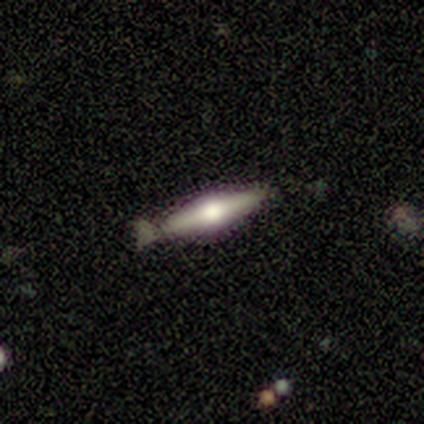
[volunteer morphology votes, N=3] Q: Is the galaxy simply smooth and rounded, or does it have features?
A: featured or disk — 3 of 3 (100%).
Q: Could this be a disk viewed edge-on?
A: yes — 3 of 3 (100%).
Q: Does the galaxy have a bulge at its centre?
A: rounded — 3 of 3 (100%).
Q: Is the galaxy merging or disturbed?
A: none — 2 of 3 (67%).